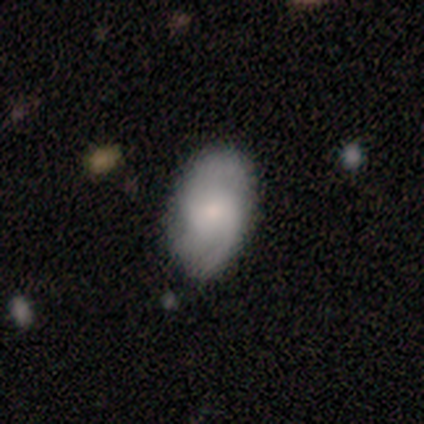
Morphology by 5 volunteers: Overall: smooth (60%; featured or disk 40%). How rounded: in between (100%). Merging: none (60%; minor disturbance 20%).